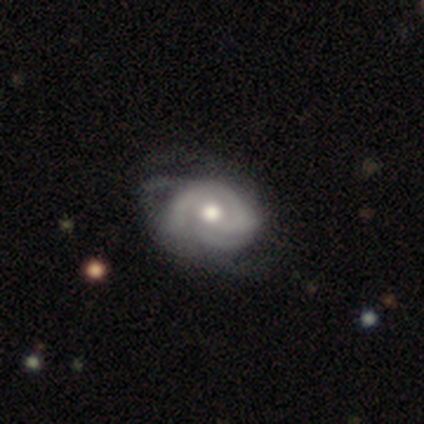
A featured or disk galaxy (79%) with no bar (84%), tight (77%) spiral arms (71%) and a moderate central bulge (71%).

Vote fractions:
- Smooth or featured? featured or disk: 79% / smooth: 15% / star or artifact: 5%
- Edge-on disk? no: 100% / yes: 0%
- Bar? no: 84% / weak: 10% / strong: 6%
- Spiral arms? yes: 71% / no: 29%
- Spiral winding? tight: 77% / medium: 18% / loose: 5%
- Spiral arm count? can't tell: 36% / 3: 27% / 2: 18% / 1: 14% / 4: 5% / more than 4: 0%
- Bulge size? moderate: 71% / large: 13% / dominant: 6% / small: 6% / none: 3%
- Merging? none: 49% / minor disturbance: 14% / major disturbance: 14% / merger: 0%